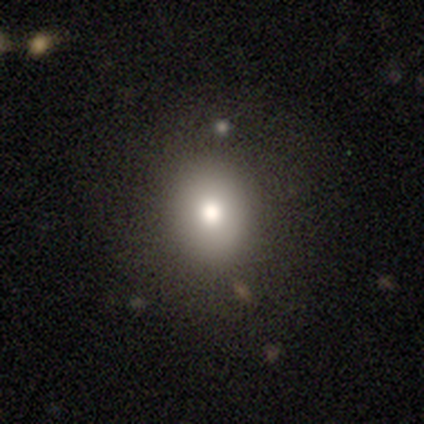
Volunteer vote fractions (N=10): This appears to be a smooth galaxy with no disk features (80%) that is in between round and cigar-shaped (75%). Merging: none (56%).